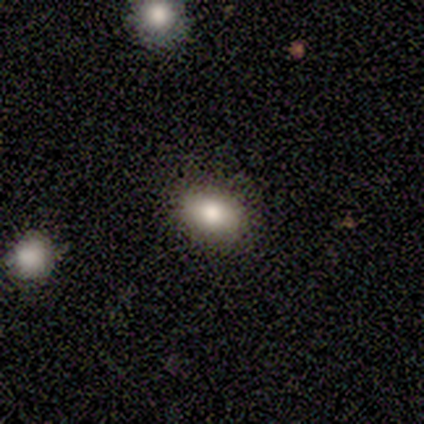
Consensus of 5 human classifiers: A smooth galaxy with no disk features (60%) that is in between round and cigar-shaped (100%). Merging: none (100%).